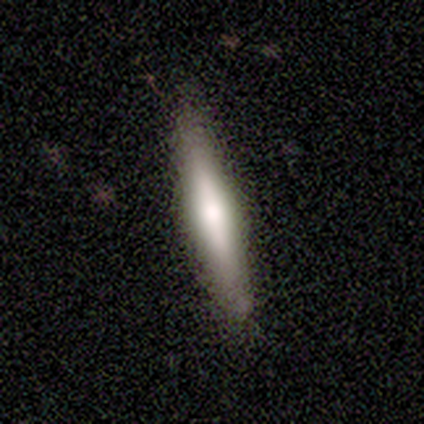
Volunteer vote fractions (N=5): A smooth galaxy with no disk features (40%, tied with featured or disk) that is cigar-shaped (100%). Merging: none (75%).